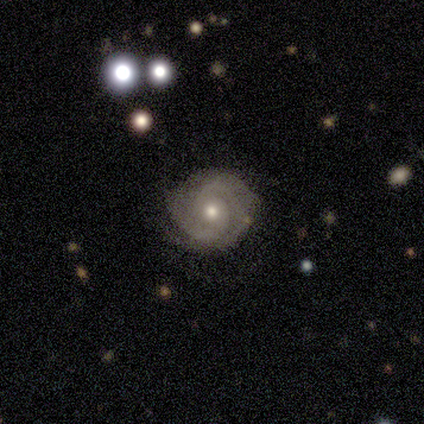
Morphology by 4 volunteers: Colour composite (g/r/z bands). It shows a featured or disk galaxy (100%) with no bar (100%), 2 (100%) tight (100%) spiral arms (100%) and a moderate central bulge (100%). Merging: none (100%).